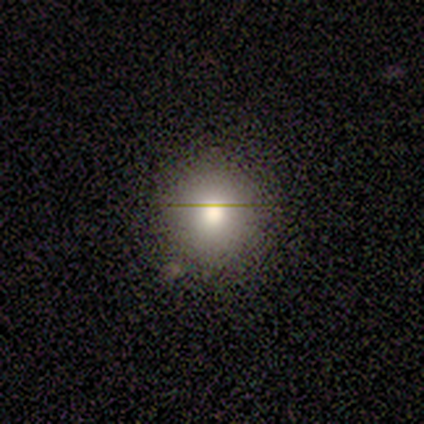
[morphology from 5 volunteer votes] A smooth galaxy with no disk features (80%) that is round (100%).

Vote fractions:
- Smooth or featured? smooth: 80% / featured or disk: 20% / star or artifact: 0%
- How rounded? round: 100% / in between: 0% / cigar-shaped: 0%
- Merging? none: 80% / minor disturbance: 20% / major disturbance: 0% / merger: 0%